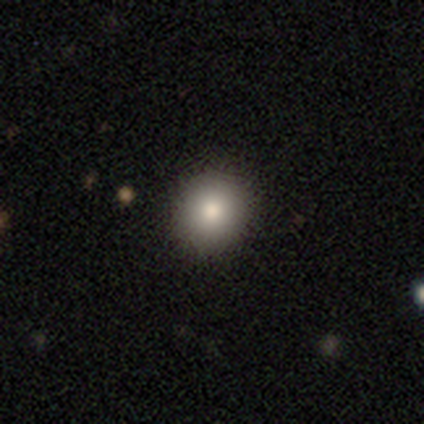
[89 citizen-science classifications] This appears to be a smooth galaxy with no disk features (76%) that is round (90%). Merging: none (94%).